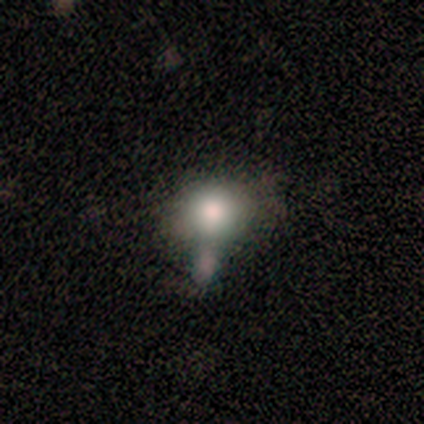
smooth_or_featured: smooth (p=0.80) [alt: featured or disk p=0.20]
how_rounded: round (p=0.75) [alt: in between p=0.25]
merging: none (p=0.40) [tied with: minor disturbance p=0.40]